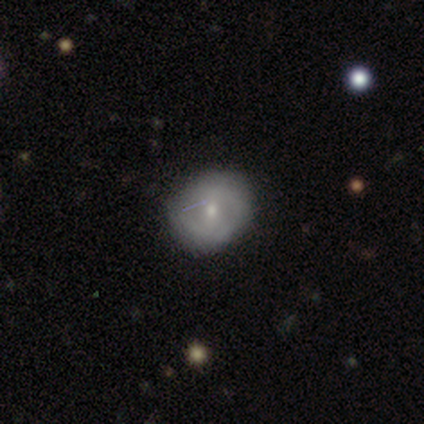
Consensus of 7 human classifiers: A smooth galaxy with no disk features (43%, tied with featured or disk) that is in between round and cigar-shaped (100%).

Vote fractions:
- Smooth or featured? smooth: 43% (tied) / featured or disk: 43% (tied) / star or artifact: 14%
- How rounded? in between: 100% / round: 0% / cigar-shaped: 0%
- Merging? none: 100% / minor disturbance: 0% / major disturbance: 0% / merger: 0%